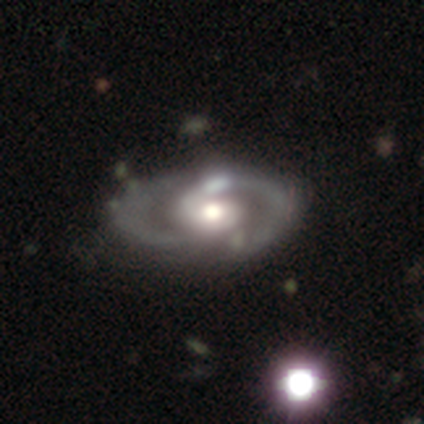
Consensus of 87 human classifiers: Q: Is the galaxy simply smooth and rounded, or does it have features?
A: featured or disk — 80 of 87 (92%).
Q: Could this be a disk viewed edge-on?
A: no — 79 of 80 (99%).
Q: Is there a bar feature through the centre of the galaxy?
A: no — 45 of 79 (57%).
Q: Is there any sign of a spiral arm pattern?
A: yes — 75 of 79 (95%).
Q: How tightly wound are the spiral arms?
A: medium — 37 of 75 (49%).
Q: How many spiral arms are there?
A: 2 — 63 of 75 (84%).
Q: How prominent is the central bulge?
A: moderate — 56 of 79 (71%).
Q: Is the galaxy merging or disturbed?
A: none — 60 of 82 (73%).